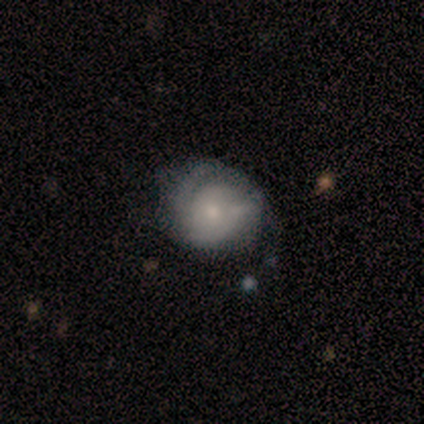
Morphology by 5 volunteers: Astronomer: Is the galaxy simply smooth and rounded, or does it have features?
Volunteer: featured or disk — 60%.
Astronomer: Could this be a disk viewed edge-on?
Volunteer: no — 100%.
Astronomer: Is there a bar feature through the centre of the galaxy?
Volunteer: weak — 67%.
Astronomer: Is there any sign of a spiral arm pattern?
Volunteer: yes — 100%.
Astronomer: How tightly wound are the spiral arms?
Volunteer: tight — 67%.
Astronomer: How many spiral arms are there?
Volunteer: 1 — 33%, tied with 2 and can't tell at 33%.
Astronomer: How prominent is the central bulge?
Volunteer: moderate — 67%.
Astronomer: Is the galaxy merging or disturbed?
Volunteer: minor disturbance — 75%.